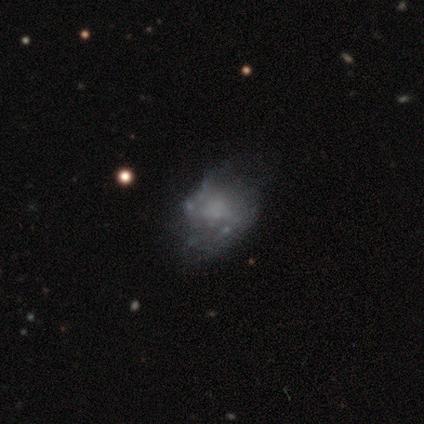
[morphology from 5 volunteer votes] Overall: smooth (40%, tied with featured or disk). How rounded: in between (100%). Merging: minor disturbance (50%; none 25%).